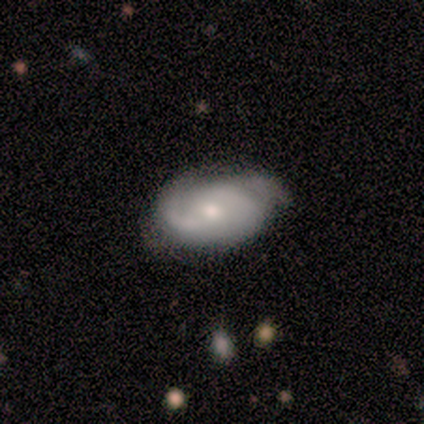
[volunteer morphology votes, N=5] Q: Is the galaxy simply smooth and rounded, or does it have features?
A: featured or disk — 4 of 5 (80%).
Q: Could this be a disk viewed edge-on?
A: no — 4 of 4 (100%).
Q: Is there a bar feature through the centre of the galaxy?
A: no — 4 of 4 (100%).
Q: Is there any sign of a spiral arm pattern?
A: yes — 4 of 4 (100%).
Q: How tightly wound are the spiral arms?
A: loose — 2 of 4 (50%).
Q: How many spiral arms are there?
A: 2 — 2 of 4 (50%).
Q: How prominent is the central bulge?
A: moderate — 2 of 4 (50%, tied with small).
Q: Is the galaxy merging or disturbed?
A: none — 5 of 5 (100%).